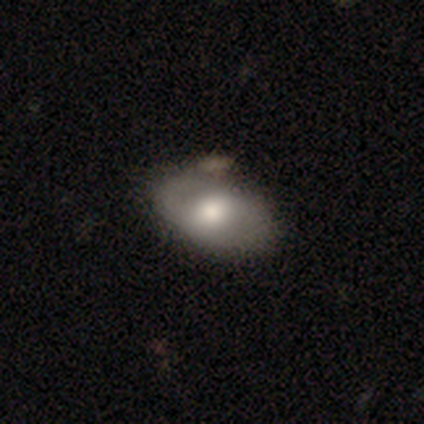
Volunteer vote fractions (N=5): A smooth galaxy with no disk features (60%) that is in between round and cigar-shaped (100%).

Vote fractions:
- Smooth or featured? smooth: 60% / featured or disk: 40% / star or artifact: 0%
- How rounded? in between: 100% / round: 0% / cigar-shaped: 0%
- Merging? none: 60% / minor disturbance: 40% / major disturbance: 0% / merger: 0%